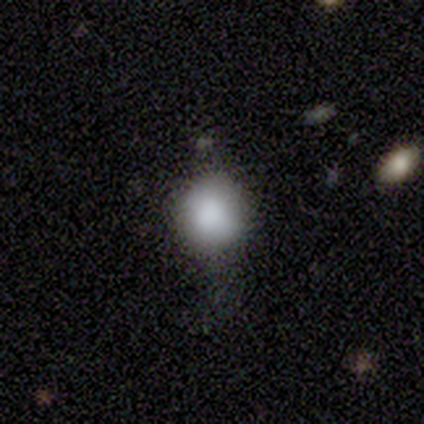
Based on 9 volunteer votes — smooth 89%, star or artifact 11%, featured or disk 0%. Down the decision tree: how rounded — round (100%); merging — none (62%).